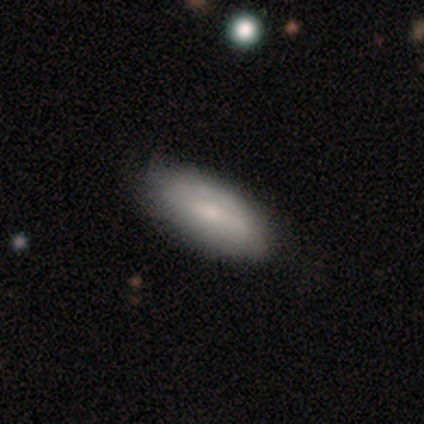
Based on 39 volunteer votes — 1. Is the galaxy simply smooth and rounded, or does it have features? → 46% smooth, 44% featured or disk, 10% star or artifact.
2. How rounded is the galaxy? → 89% in between, 11% cigar-shaped, 0% round.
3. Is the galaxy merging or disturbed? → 86% none, 11% minor disturbance, 3% merger, 0% major disturbance.